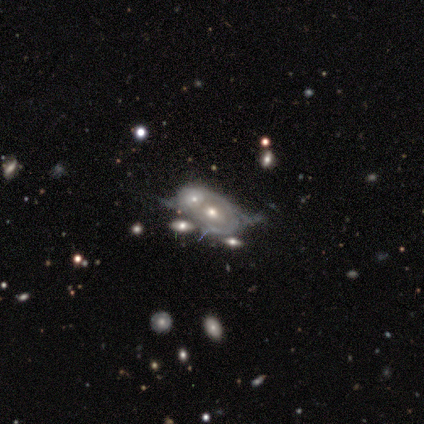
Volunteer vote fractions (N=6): A featured or disk galaxy (83%) with no bar (100%), no spiral arms (100%) and a moderate central bulge (60%). Merging: merger (83%).